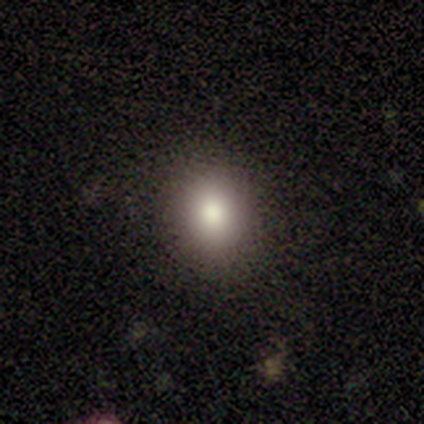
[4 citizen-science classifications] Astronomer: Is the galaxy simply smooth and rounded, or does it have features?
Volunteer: smooth — 75%.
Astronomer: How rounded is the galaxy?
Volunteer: round — 100%.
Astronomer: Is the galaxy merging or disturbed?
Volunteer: none — 100%.